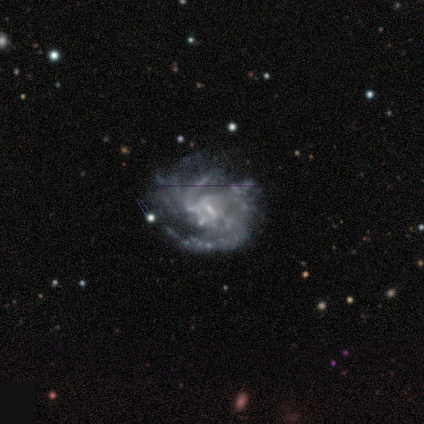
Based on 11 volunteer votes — Volunteers were most divided on "spiral winding": medium: 44%, tight: 33%, loose: 22%. Remaining: spiral arms — yes (100%); smooth or featured — featured or disk (91%); edge-on disk — no (90%); bulge size — small (67%); merging — none (60%); bar — weak (56%); spiral arm count — can't tell (44%).